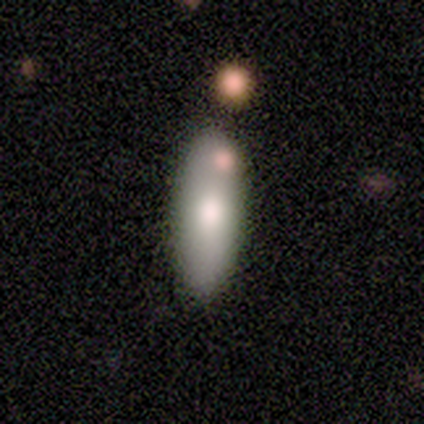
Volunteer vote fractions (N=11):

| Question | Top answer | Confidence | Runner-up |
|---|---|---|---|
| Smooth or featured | smooth | 55% | featured or disk (36%) |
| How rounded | in between | 83% | cigar-shaped (17%) |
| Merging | none | 70% | merger (20%) |